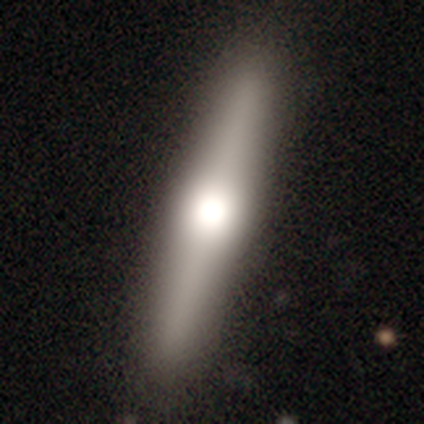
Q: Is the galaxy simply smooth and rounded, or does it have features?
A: featured or disk — 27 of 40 (68%).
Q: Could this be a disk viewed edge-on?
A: yes — 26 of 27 (96%).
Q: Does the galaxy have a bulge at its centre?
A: rounded — 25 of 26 (96%).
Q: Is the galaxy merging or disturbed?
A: none — 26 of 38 (68%).